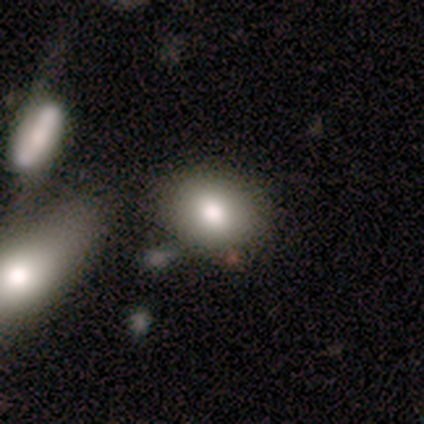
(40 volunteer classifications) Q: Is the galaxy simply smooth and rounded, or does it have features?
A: smooth — 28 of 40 (70%).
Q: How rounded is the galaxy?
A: in between — 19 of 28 (68%).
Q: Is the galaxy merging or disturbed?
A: none — 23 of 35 (66%).